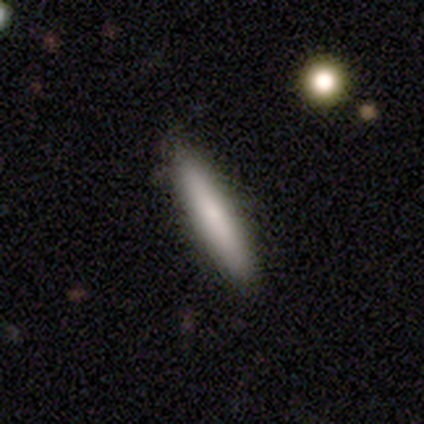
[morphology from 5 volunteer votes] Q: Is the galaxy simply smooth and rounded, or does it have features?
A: smooth — 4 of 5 (80%).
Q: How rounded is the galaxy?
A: cigar-shaped — 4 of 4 (100%).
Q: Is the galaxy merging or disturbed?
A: none — 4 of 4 (100%).